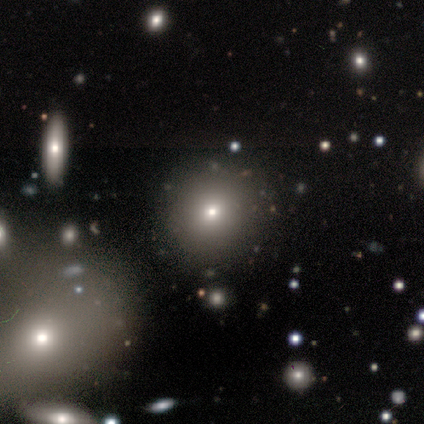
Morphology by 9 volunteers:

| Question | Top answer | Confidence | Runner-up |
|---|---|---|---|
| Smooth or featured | smooth | 56% | featured or disk (33%) |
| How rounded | round | 80% | in between (20%) |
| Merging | none | 75% | minor disturbance (25%) |